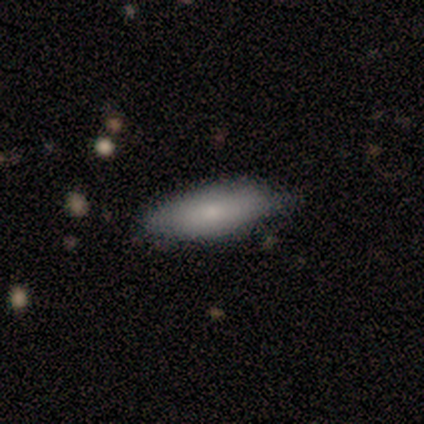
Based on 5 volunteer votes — smooth-or-featured: smooth: 60% | featured or disk: 40% | star or artifact: 0%
  how-rounded: in between: 100% | round: 0% | cigar-shaped: 0%
  merging: none: 60% | minor disturbance: 40% | major disturbance: 0% | merger: 0%